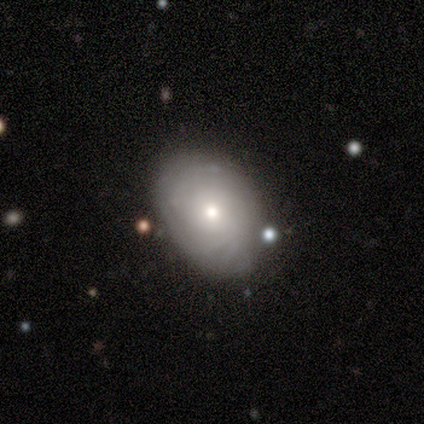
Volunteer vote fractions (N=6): Volunteers were most divided on "smooth or featured" (2-way tie): smooth: 50%, featured or disk: 50%, star or artifact: 0%. More confident: merging — none (83%); how rounded — in between (67%).